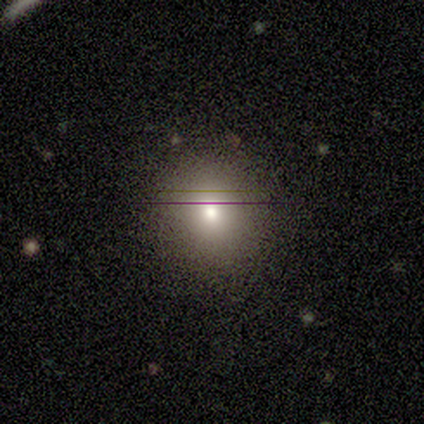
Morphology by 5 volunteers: Volunteers were most divided on "merging": none: 75%, minor disturbance: 25%, major disturbance: 0%, merger: 0%. More confident: how rounded — round (100%); smooth or featured — smooth (80%).